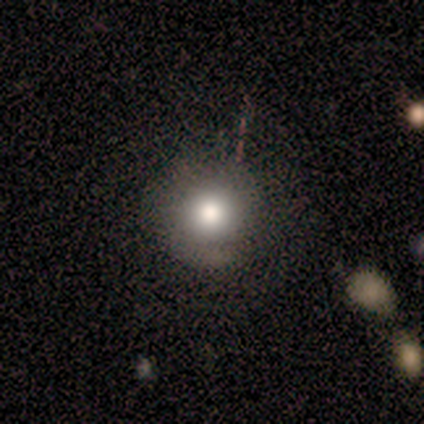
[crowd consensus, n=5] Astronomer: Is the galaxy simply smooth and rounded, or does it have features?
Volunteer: smooth — 60%.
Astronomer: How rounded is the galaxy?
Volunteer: round — 100%.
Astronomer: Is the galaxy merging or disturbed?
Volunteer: none — 75%.